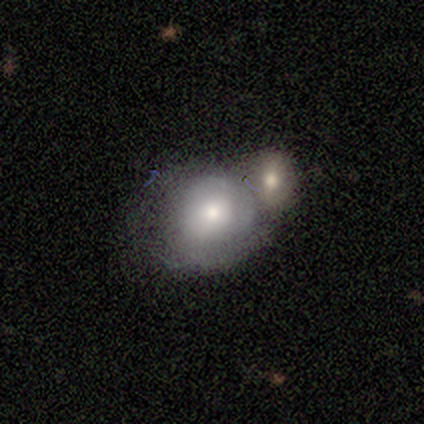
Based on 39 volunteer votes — A smooth galaxy with no disk features (62%) that is round (83%). Merging: merger (52%).